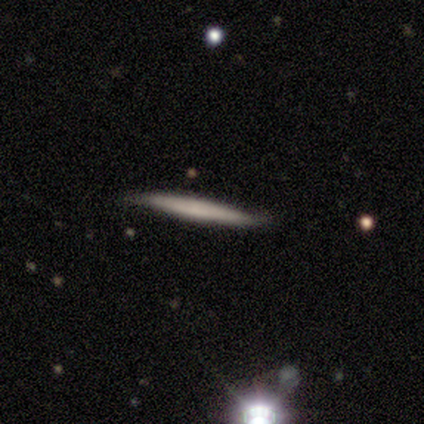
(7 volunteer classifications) Morphology: type=smooth (71%); roundness=cigar-shaped (100%); merging=none (86%).